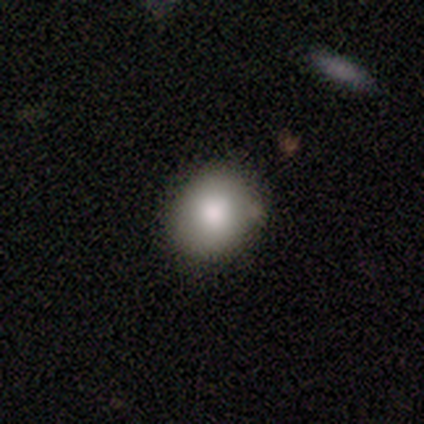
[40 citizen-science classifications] Volunteers were most divided on "how rounded": round: 57%, in between: 43%, cigar-shaped: 0%. More confident: smooth or featured — smooth (88%); merging — none (57%).